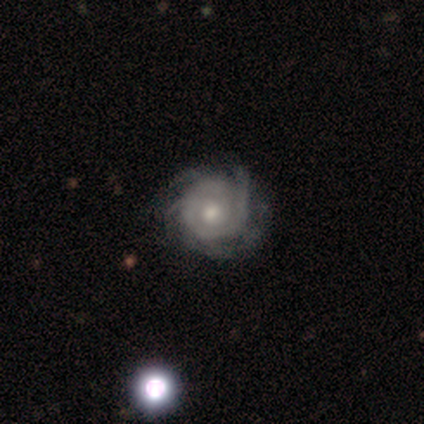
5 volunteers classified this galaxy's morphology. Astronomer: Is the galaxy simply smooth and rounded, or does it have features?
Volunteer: featured or disk — 100%.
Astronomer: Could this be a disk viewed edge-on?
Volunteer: no — 100%.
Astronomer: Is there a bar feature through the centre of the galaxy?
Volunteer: no — 80%.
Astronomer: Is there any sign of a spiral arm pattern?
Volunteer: yes — 100%.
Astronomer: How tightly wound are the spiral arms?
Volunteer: tight — 80%.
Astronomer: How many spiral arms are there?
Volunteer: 4 — 60%.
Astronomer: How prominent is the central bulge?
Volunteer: moderate — 60% (runner-up: small, 40%).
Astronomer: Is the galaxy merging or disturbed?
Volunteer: none — 80%.